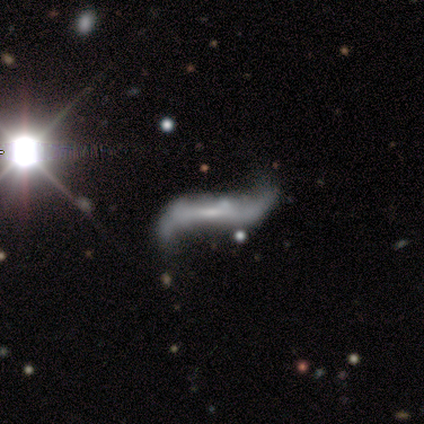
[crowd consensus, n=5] Overall: featured or disk (100%). Edge-on disk: no (60%; yes 40%). Bar: strong (67%; weak 33%). Spiral arms: yes (100%). Spiral arm count: 2 (100%). Spiral winding: loose (100%). Bulge size: small (67%; none 33%). Merging: none (40%, tied with merger).